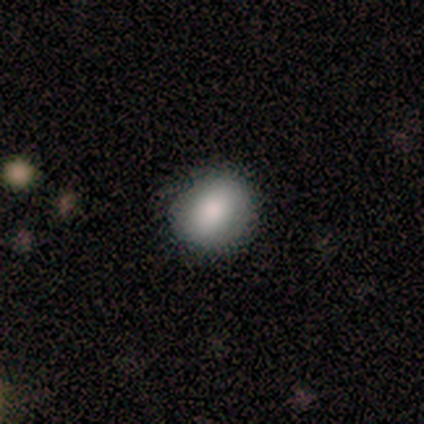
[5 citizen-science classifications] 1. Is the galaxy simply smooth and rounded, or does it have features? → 100% smooth, 0% featured or disk, 0% star or artifact.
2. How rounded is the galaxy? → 100% round, 0% in between, 0% cigar-shaped.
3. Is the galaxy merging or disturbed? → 80% none, 20% minor disturbance, 0% major disturbance, 0% merger.